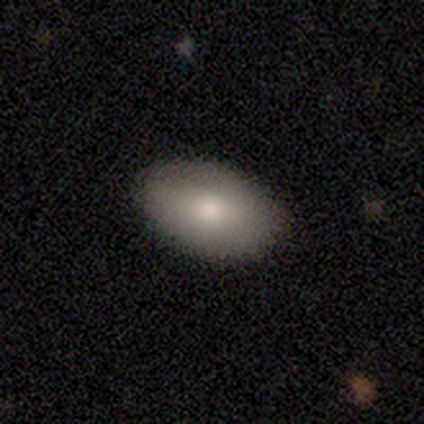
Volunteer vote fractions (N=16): Q: Smooth or featured?
A: smooth (94%); runner-up: featured or disk (6%)
Q: How rounded?
A: in between (87%); runner-up: round (13%)
Q: Merging?
A: none (94%); runner-up: minor disturbance (6%)